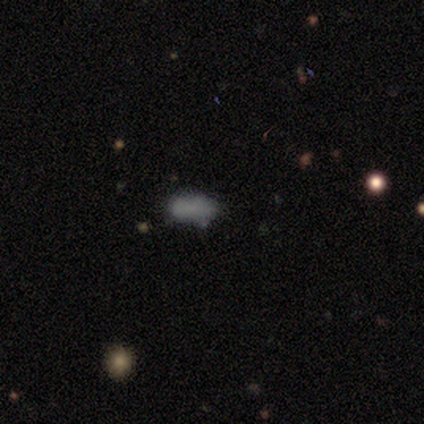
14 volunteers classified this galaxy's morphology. A smooth galaxy with no disk features (86%) that is in between round and cigar-shaped (92%). Merging: none (77%).